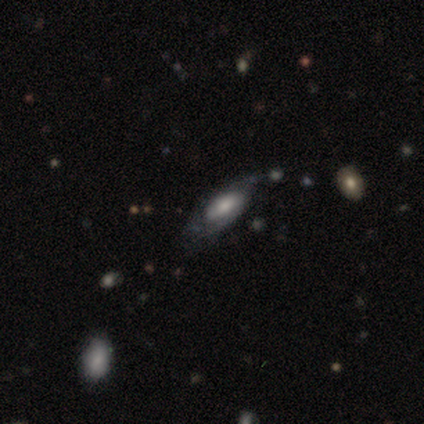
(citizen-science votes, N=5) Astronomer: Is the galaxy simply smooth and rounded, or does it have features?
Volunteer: featured or disk — 60% (runner-up: star or artifact, 40%).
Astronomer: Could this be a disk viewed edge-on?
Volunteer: no — 67%.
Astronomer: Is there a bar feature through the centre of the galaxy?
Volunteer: no — 100%.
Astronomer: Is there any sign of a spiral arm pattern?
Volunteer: no — 100%.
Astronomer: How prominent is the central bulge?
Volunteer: large — 50%, tied with moderate at 50%.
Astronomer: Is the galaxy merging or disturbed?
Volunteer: major disturbance — 67%.